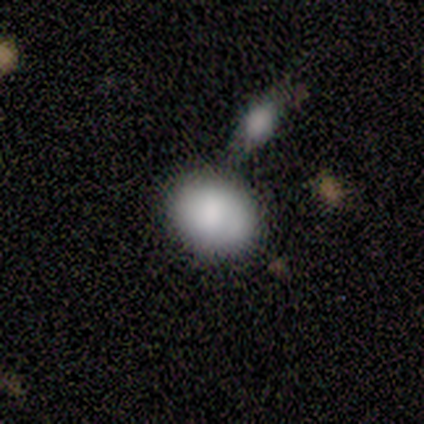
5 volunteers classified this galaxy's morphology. This appears to be a smooth galaxy with no disk features (80%) that is round (50%, tied with in between). Merging: minor disturbance (50%).